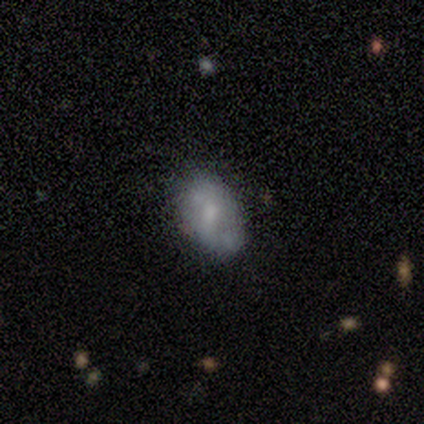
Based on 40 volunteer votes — A smooth galaxy with no disk features (45%, tied with featured or disk) that is in between round and cigar-shaped (78%). Merging: none (61%).